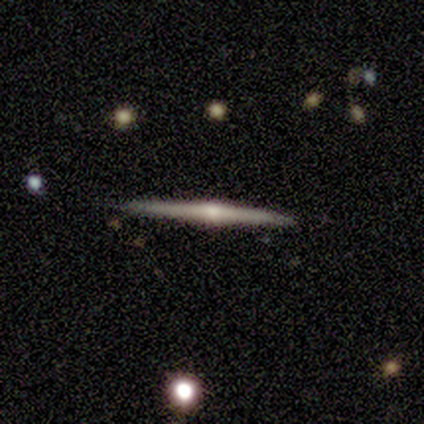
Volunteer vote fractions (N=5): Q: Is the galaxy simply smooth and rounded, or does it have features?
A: featured or disk — 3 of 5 (60%).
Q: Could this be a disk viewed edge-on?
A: yes — 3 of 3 (100%).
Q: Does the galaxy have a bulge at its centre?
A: rounded — 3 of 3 (100%).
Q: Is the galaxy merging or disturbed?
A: none — 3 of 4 (75%).